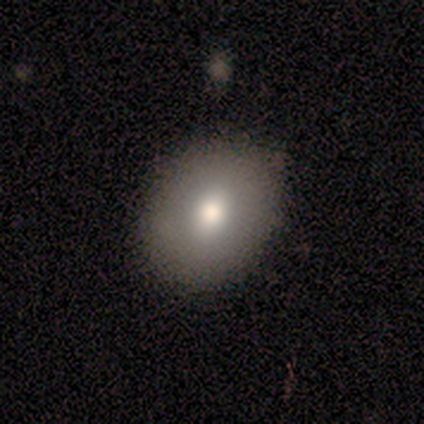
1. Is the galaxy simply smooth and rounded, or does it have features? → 80% smooth, 20% star or artifact, 0% featured or disk.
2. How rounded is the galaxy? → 50% round (tied), 50% in between (tied), 0% cigar-shaped.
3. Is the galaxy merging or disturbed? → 100% none, 0% minor disturbance, 0% major disturbance, 0% merger.